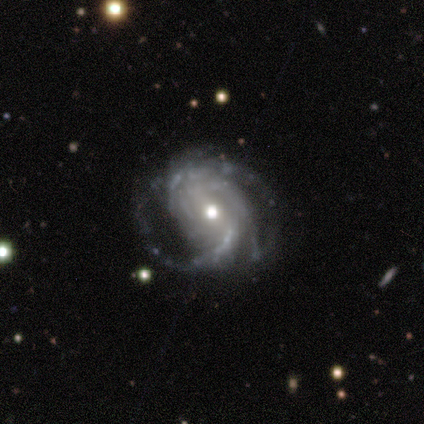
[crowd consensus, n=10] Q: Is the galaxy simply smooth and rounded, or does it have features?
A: featured or disk — 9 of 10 (90%).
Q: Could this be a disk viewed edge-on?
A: no — 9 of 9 (100%).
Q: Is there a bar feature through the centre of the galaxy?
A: weak — 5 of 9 (56%).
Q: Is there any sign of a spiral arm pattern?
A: yes — 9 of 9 (100%).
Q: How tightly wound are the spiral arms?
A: medium — 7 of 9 (78%).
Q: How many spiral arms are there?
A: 3 — 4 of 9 (44%).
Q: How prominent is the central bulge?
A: moderate — 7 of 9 (78%).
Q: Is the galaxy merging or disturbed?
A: none — 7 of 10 (70%).